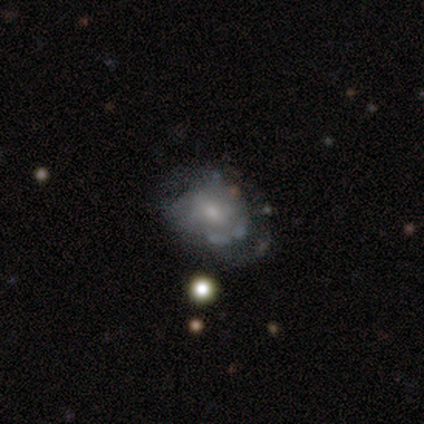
Smooth or featured? 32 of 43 (74%) said featured or disk. Edge-on disk? 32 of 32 (100%) said no. Bar? 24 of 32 (75%) said no. Spiral arms? 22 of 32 (69%) said no. Bulge size? 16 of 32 (50%) said small. Merging? 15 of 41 (37%) said none.